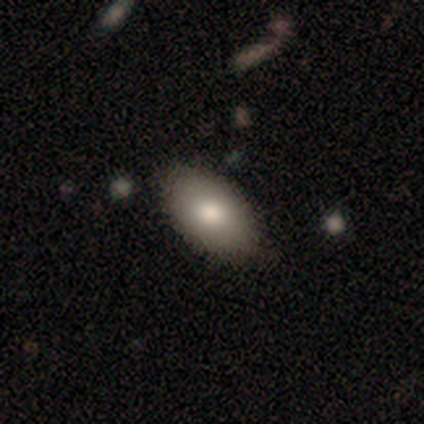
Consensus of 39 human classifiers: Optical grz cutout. It shows a smooth galaxy with no disk features (79%) that is in between round and cigar-shaped (100%). Merging: none (63%).